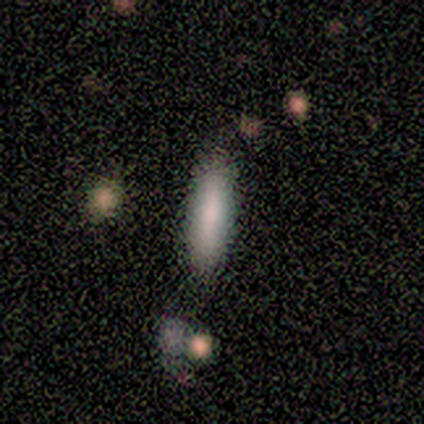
Smooth or featured? 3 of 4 (75%) said smooth. How rounded? 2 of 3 (67%) said cigar-shaped. Merging? 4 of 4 (100%) said none.